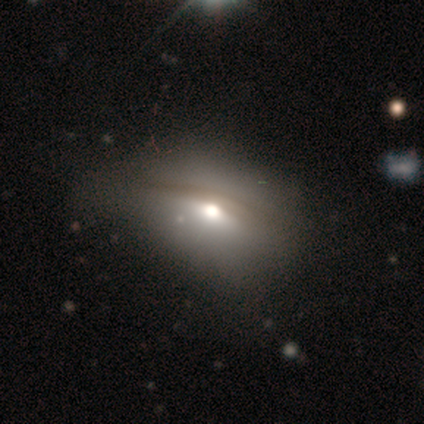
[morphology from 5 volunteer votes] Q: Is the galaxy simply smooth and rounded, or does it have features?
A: featured or disk — 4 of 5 (80%).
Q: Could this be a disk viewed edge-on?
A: no — 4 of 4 (100%).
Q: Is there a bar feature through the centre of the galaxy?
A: no — 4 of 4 (100%).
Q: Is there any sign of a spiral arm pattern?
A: no — 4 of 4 (100%).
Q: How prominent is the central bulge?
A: moderate — 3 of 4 (75%).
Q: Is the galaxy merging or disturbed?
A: minor disturbance — 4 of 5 (80%).